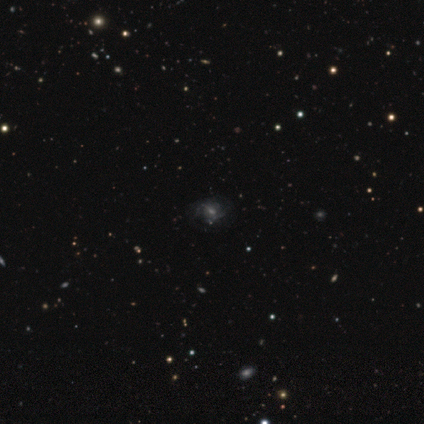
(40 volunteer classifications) This is possibly a featured or disk galaxy (45%). It is clearly not viewed edge-on (100%). Bar: possibly weak (50%). Spiral arm pattern: clearly yes (89%). Spiral arm count: likely can't tell (69%). Spiral winding: marginally medium (44%). Central bulge: marginally moderate (44%). Merging: likely none (69%).